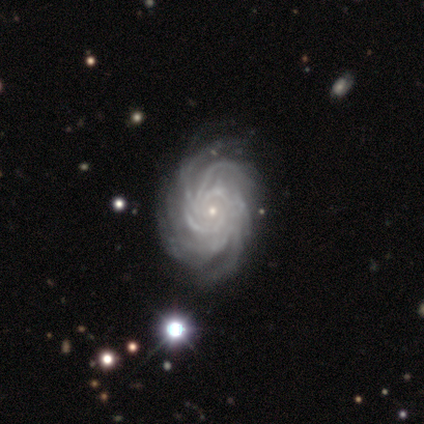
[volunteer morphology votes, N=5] type=featured or disk (100%); edge-on=no (100%); bar=no (80%); spiral arms=yes (100%); winding=tight (80%); arm count=more than 4 (100%); bulge=small (80%); merging=none (60%).